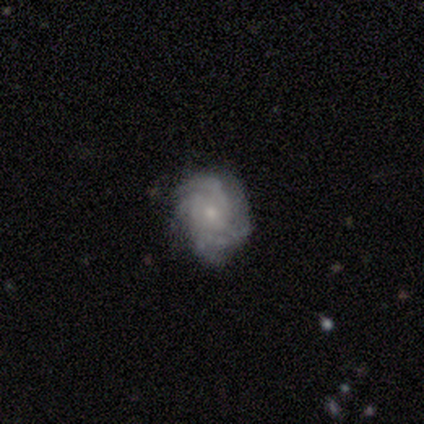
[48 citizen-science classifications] Morphology: type=featured or disk (77%); edge-on=no (100%); bar=no (84%); spiral arms=yes (97%); winding=tight (64%); arm count=can't tell (39%); bulge=small (59%); merging=none (59%).